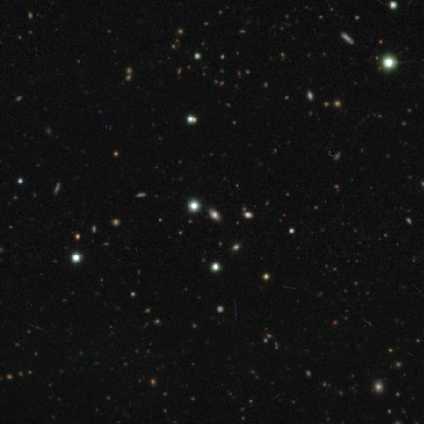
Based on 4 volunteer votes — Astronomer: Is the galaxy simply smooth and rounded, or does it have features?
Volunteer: star or artifact — 100%.